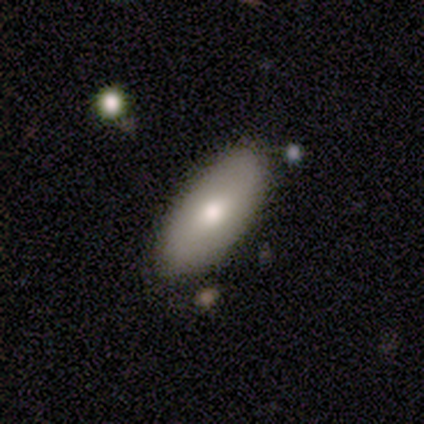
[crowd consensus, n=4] Morphology: type=smooth (75%); roundness=in between (100%); merging=none (100%).